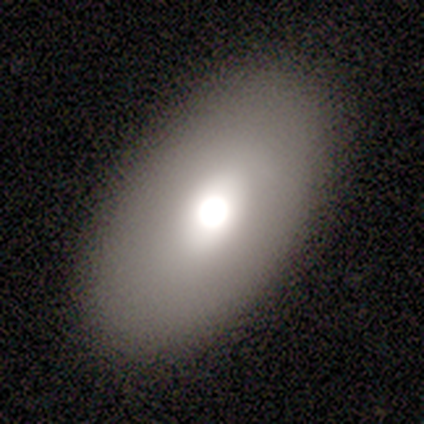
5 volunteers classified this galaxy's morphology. Overall: smooth (80%). How rounded: in between (75%). Merging: none (60%; major disturbance 20%).